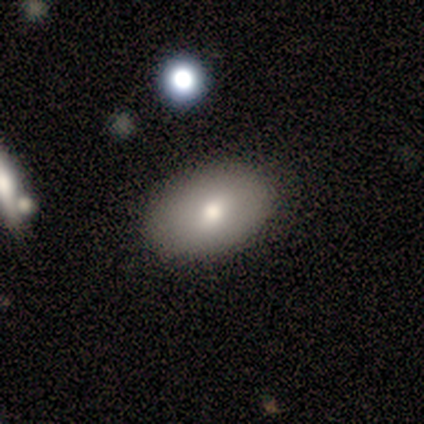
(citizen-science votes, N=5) smooth 100%, featured or disk 0%, star or artifact 0%. Down the decision tree: how rounded — in between (60%); merging — none (100%).